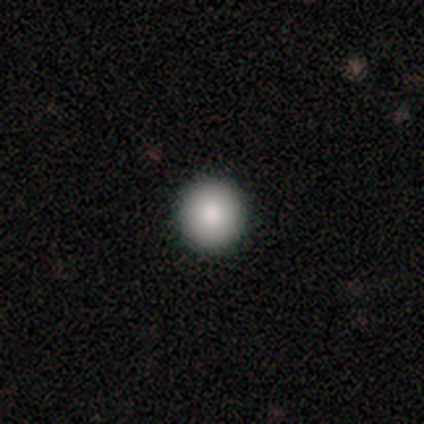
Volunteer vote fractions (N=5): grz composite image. It shows a smooth galaxy with no disk features (100%) that is round (100%). Merging: none (100%).